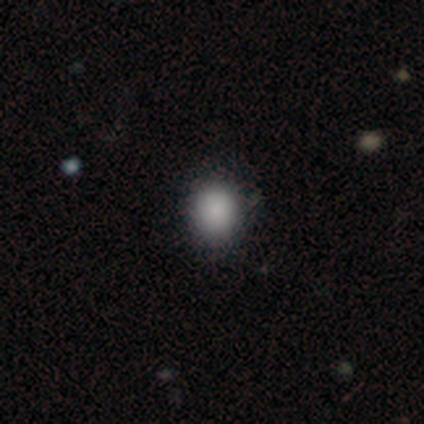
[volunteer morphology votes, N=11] smooth_or_featured: smooth (p=0.91) [alt: star or artifact p=0.09]
how_rounded: round (p=0.60) [alt: in between p=0.40]
merging: none (p=0.80) [alt: minor disturbance p=0.20]